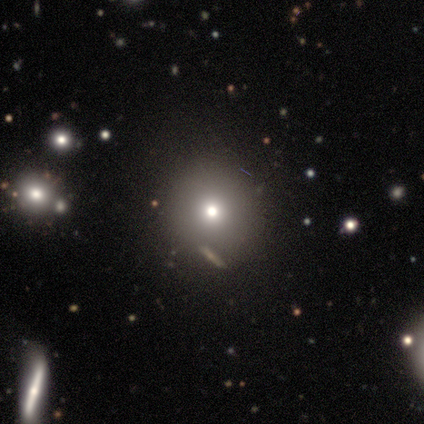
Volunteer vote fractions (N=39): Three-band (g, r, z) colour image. It shows a smooth galaxy with no disk features (82%) that is round (94%). Merging: none (88%).